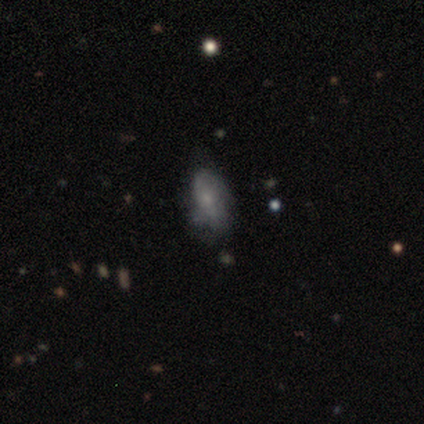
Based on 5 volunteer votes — This appears to be a featured or disk galaxy (60%) with no bar (67%), no spiral arms (67%) and a small central bulge (100%). Merging: none (60%).